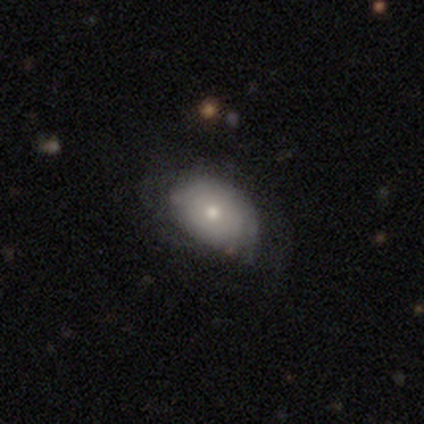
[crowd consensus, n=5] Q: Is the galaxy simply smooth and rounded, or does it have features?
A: smooth — 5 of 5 (100%).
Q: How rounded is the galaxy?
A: in between — 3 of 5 (60%).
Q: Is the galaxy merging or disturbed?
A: none — 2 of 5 (40%, tied with minor disturbance).